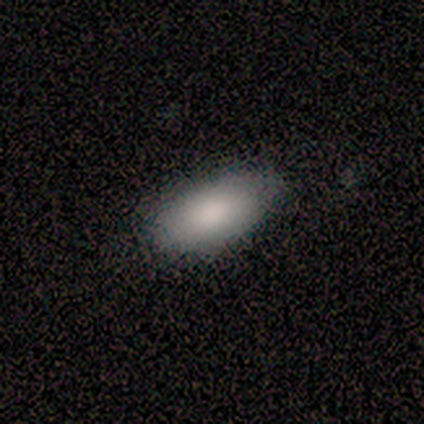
Q: Smooth or featured?
A: smooth (100%)
Q: How rounded?
A: in between (80%); runner-up: cigar-shaped (20%)
Q: Merging?
A: none (100%)